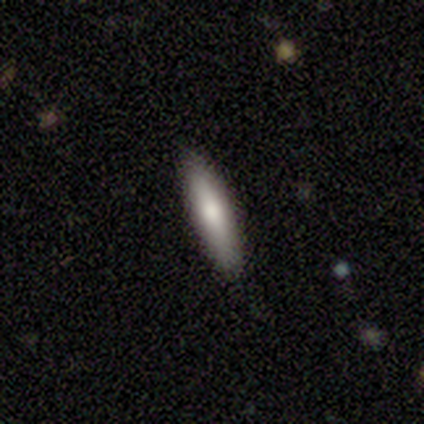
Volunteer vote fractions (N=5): A smooth galaxy with no disk features (100%) that is cigar-shaped (60%).

Vote fractions:
- Smooth or featured? smooth: 100% / featured or disk: 0% / star or artifact: 0%
- How rounded? cigar-shaped: 60% / in between: 40% / round: 0%
- Merging? none: 80% / major disturbance: 20% / minor disturbance: 0% / merger: 0%